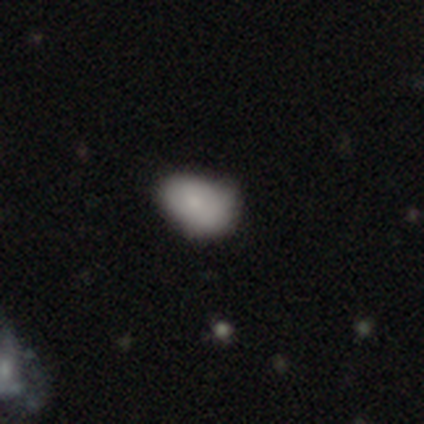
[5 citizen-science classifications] Smooth or featured: smooth — 80% (star or artifact — 20%)
How rounded: in between — 100%
Merging: none — 75% (minor disturbance — 25%)